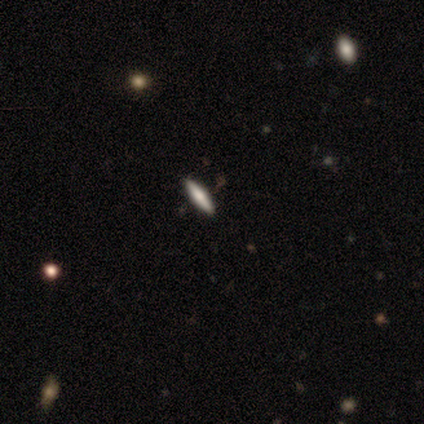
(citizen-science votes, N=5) Q: Smooth or featured?
A: smooth (80%); runner-up: featured or disk (20%)
Q: How rounded?
A: in between (50%); tied with: cigar-shaped (50%)
Q: Merging?
A: none (80%); runner-up: minor disturbance (20%)